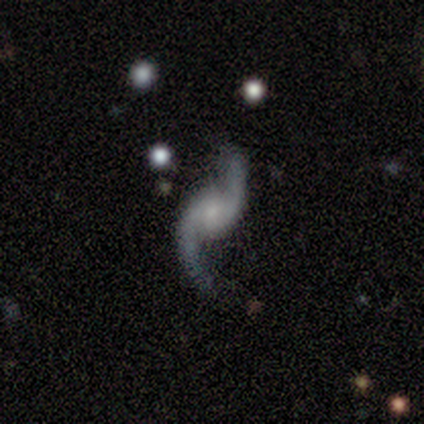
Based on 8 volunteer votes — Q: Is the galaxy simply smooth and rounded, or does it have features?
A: featured or disk — 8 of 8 (100%).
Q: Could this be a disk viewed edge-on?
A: no — 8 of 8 (100%).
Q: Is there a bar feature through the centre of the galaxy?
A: no — 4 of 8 (50%).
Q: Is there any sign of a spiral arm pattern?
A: yes — 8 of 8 (100%).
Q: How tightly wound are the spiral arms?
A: loose — 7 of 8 (88%).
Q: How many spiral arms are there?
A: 2 — 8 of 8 (100%).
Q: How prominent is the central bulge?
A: small — 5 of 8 (62%).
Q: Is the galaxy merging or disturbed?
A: none — 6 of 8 (75%).